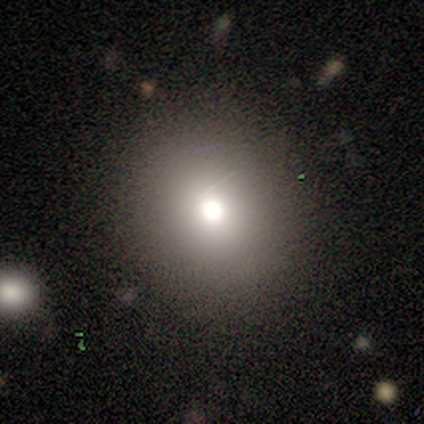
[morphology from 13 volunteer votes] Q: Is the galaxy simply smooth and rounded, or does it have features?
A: smooth — 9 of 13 (69%).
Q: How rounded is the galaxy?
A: round — 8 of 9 (89%).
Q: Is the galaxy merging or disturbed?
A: none — 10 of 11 (91%).